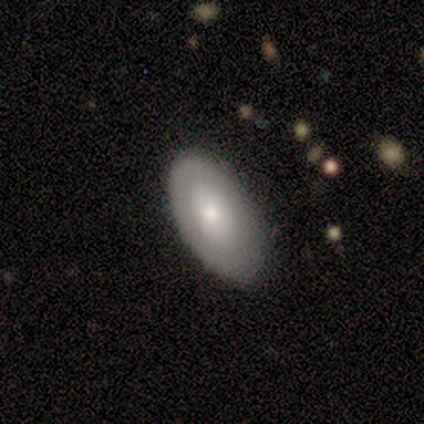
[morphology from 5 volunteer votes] smooth 100%, featured or disk 0%, star or artifact 0%. Down the decision tree: how rounded — in between (100%); merging — none (100%).